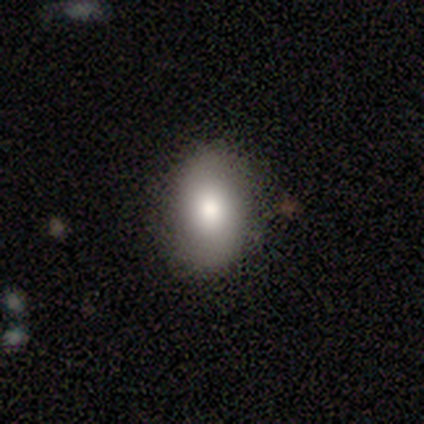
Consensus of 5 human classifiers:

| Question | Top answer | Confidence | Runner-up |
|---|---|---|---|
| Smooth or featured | smooth | 80% | featured or disk (20%) |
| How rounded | in between | 100% | — |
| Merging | none | 60% | minor disturbance (40%) |